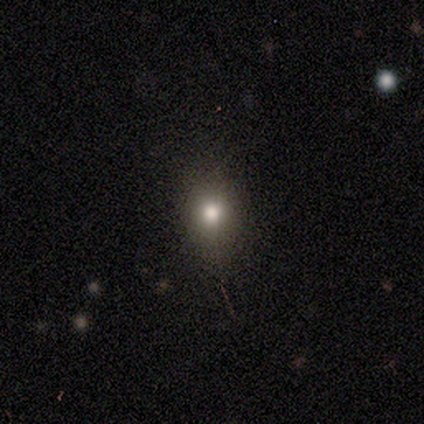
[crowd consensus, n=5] Smooth or featured?
  - smooth: 80% *
  - star or artifact: 20%
  - featured or disk: 0%
How rounded?
  - round: 75% *
  - in between: 25%
  - cigar-shaped: 0%
Merging?
  - none: 75% *
  - minor disturbance: 25%
  - major disturbance: 0%
  - merger: 0%